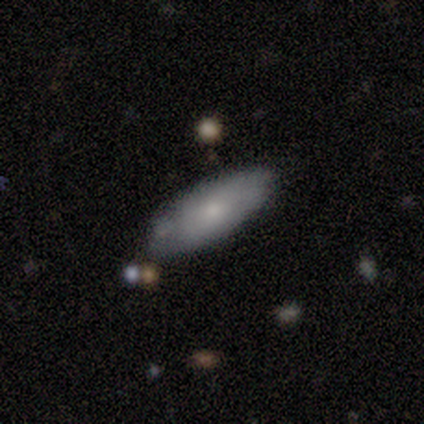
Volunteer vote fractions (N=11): smooth 82%, featured or disk 9%, star or artifact 9%. Down the decision tree: how rounded — in between (78%); merging — none (90%).